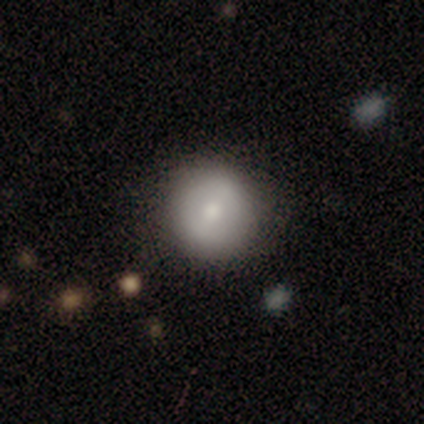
Q: Smooth or featured?
A: smooth (50%); tied with: featured or disk (50%)
Q: How rounded?
A: round (100%)
Q: Merging?
A: none (100%)